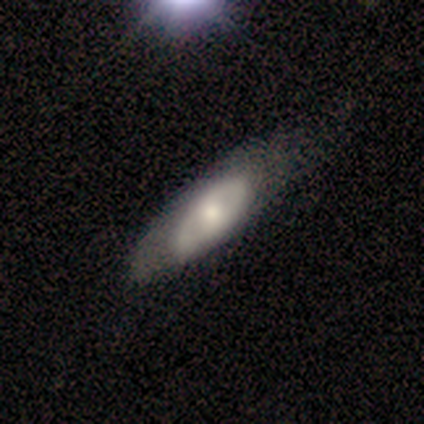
A smooth galaxy with no disk features (50%) that is in between round and cigar-shaped (86%).

Vote fractions:
- Smooth or featured? smooth: 50% / featured or disk: 43% / star or artifact: 7%
- How rounded? in between: 86% / cigar-shaped: 14% / round: 0%
- Merging? minor disturbance: 69% / none: 23% / major disturbance: 8% / merger: 0%